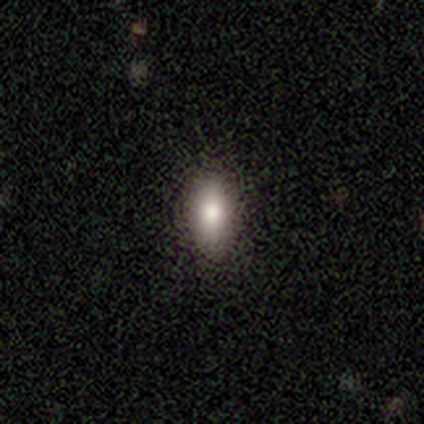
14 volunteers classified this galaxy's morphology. smooth-or-featured: smooth: 86% | featured or disk: 7% | star or artifact: 7%
  how-rounded: in between: 58% | round: 33% | cigar-shaped: 8%
  merging: none: 100% | minor disturbance: 0% | major disturbance: 0% | merger: 0%